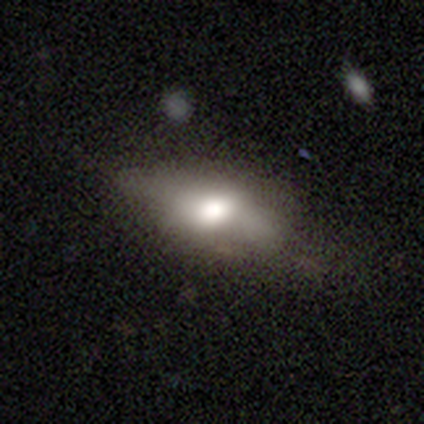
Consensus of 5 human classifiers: Smooth or featured?
  - smooth: 60% *
  - featured or disk: 20%
  - star or artifact: 20%
How rounded?
  - in between: 67% *
  - cigar-shaped: 33%
  - round: 0%
Merging?
  - none: 50% * (tied)
  - minor disturbance: 50% * (tied)
  - major disturbance: 0%
  - merger: 0%